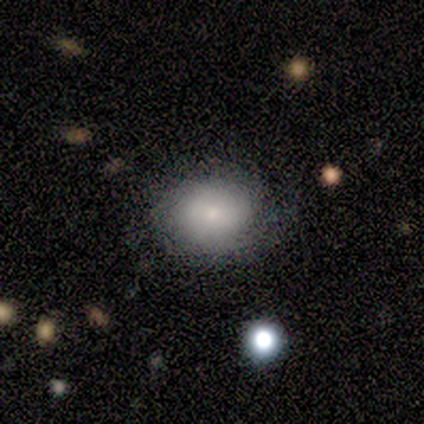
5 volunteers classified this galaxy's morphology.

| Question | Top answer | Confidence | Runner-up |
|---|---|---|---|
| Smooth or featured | featured or disk | 60% | smooth (20%) |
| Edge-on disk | no | 100% | — |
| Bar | no | 100% | — |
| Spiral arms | no | 100% | — |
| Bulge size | small | 67% | moderate (33%) |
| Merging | none | 75% | minor disturbance (25%) |